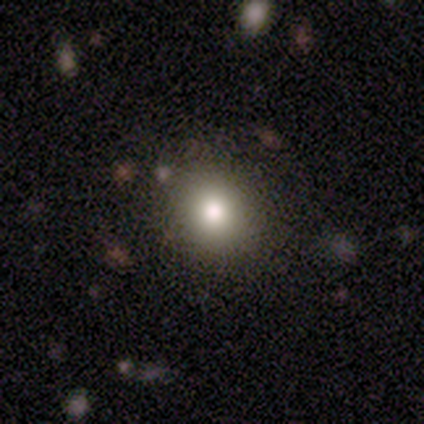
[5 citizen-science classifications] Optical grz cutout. It shows a smooth galaxy with no disk features (60%) that is round (100%). Merging: minor disturbance (67%).